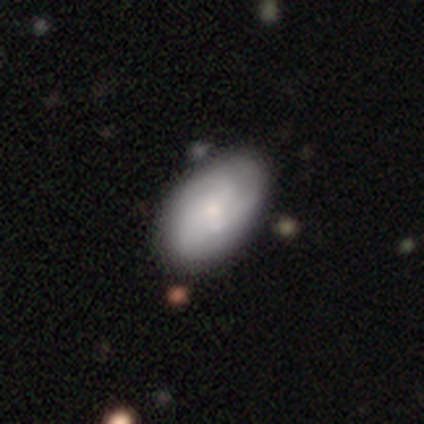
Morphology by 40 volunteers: type=featured or disk (57%); edge-on=no (96%); bar=no (73%); spiral arms=yes (91%); winding=tight (45%); arm count=3 (50%); bulge=small (55%); merging=none (70%).